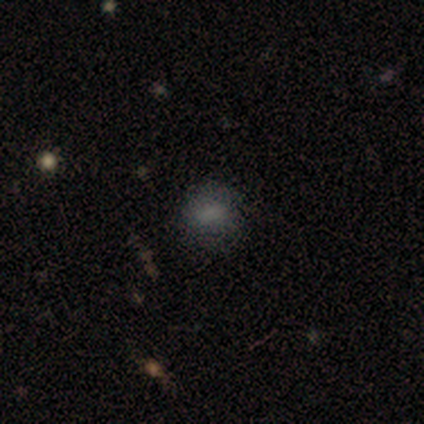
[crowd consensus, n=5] Smooth or featured? 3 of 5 (60%) said smooth. How rounded? 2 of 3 (67%) said round. Merging? 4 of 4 (100%) said none.